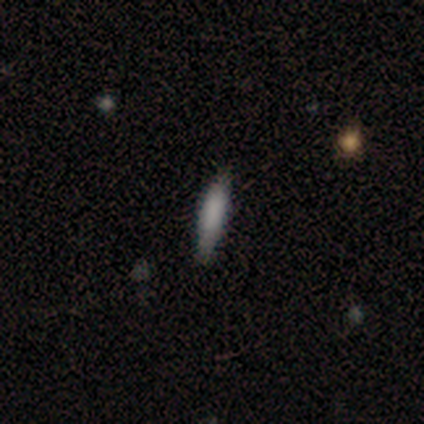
smooth 80%, featured or disk 20%, star or artifact 0%. Down the decision tree: how rounded — cigar-shaped (75%); merging — none (80%).